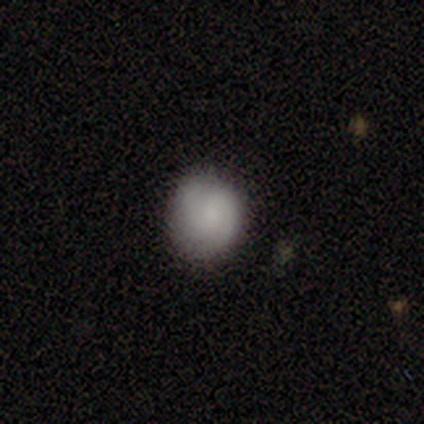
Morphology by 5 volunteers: type=smooth (40%, tied with featured or disk); roundness=in between (100%); merging=none (50%, tied with minor disturbance).